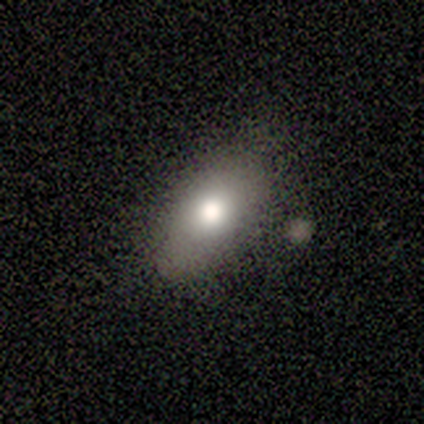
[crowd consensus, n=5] This is likely a smooth galaxy (60%). How rounded: clearly in between (100%). Merging: likely none (75%).